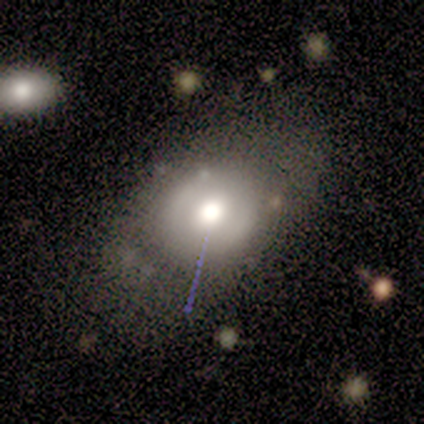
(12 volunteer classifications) smooth_or_featured: smooth (p=0.67) [alt: featured or disk p=0.25]
how_rounded: round (p=0.62) [alt: in between p=0.38]
merging: none (p=0.64) [alt: minor disturbance p=0.27]